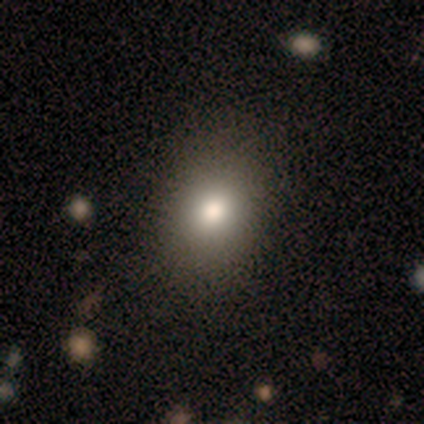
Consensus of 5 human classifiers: Volunteers were most divided on "how rounded": in between: 75%, round: 25%, cigar-shaped: 0%. More confident: merging — none (100%); smooth or featured — smooth (80%).